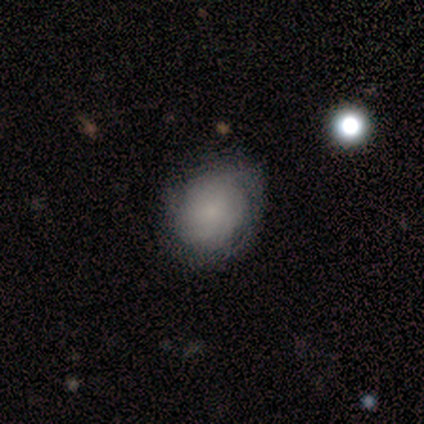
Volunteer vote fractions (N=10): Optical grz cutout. It shows a featured or disk galaxy (60%) with no bar (100%), tight (75%) spiral arms (67%) and a small central bulge (50%). Merging: none (60%).